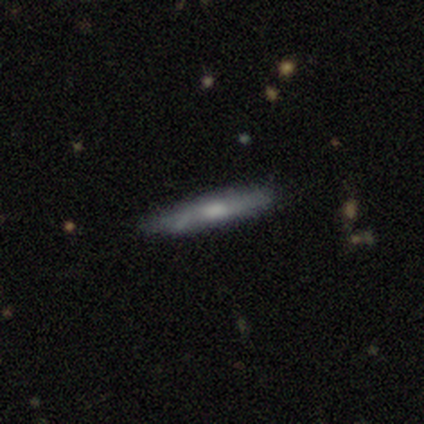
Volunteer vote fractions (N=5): Q: Smooth or featured?
A: featured or disk (60%); runner-up: smooth (40%)
Q: Edge-on disk?
A: no (67%); runner-up: yes (33%)
Q: Bar?
A: strong (50%); tied with: no (50%)
Q: Spiral arms?
A: no (100%)
Q: Bulge size?
A: moderate (50%); tied with: none (50%)
Q: Merging?
A: none (80%); runner-up: minor disturbance (20%)